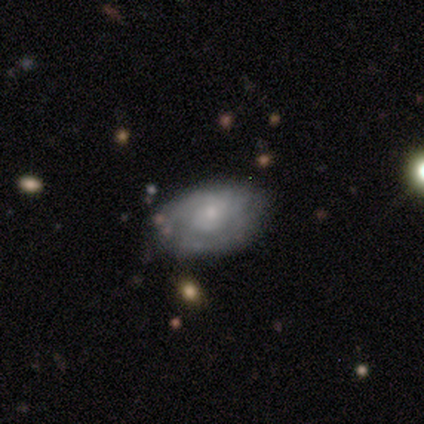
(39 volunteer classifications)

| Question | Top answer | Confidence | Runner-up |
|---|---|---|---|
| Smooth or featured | featured or disk | 62% | smooth (31%) |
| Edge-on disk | no | 100% | — |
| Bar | no | 88% | weak (12%) |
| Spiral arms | yes | 71% | no (29%) |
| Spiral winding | tight | 53% | medium (29%) |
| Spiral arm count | can't tell | 41% | 2 (29%) |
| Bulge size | small | 54% | moderate (29%) |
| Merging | none | 67% | minor disturbance (25%) |